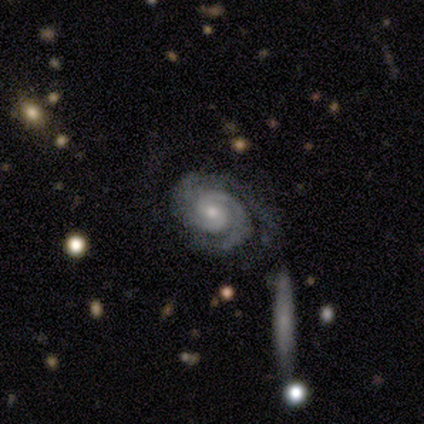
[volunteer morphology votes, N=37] Volunteers were most divided on "bar": no: 53%, weak: 44%, strong: 3%. More confident: edge-on disk — no (97%); spiral arms — yes (94%); smooth or featured — featured or disk (89%); spiral winding — tight (70%); bulge size — small (66%); merging — none (64%); spiral arm count — 2 (57%).